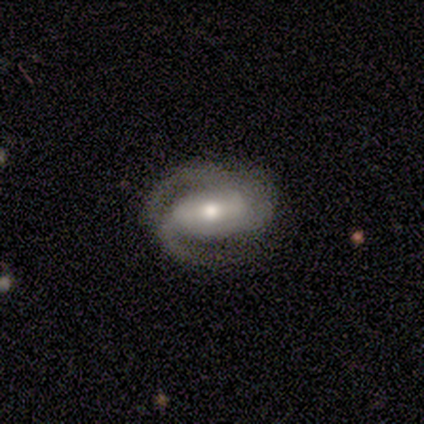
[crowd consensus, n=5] Smooth or featured?
  - featured or disk: 100% *
  - smooth: 0%
  - star or artifact: 0%
Edge-on disk?
  - no: 100% *
  - yes: 0%
Bar?
  - strong: 60% *
  - weak: 20%
  - no: 20%
Spiral arms?
  - yes: 80% *
  - no: 20%
Spiral winding?
  - tight: 50% *
  - medium: 25%
  - loose: 25%
Spiral arm count?
  - 2: 100% *
  - 1: 0%
  - 3: 0%
  - 4: 0%
  - more than 4: 0%
  - can't tell: 0%
Bulge size?
  - moderate: 60% *
  - large: 20%
  - small: 20%
  - dominant: 0%
  - none: 0%
Merging?
  - none: 80% *
  - major disturbance: 20%
  - minor disturbance: 0%
  - merger: 0%